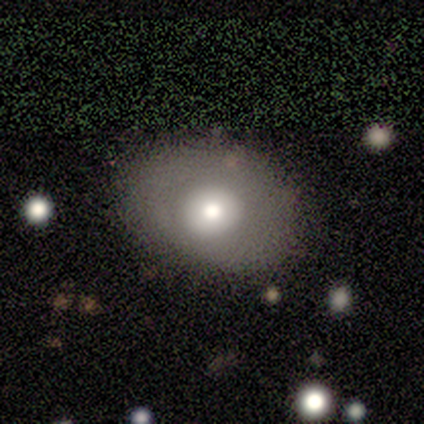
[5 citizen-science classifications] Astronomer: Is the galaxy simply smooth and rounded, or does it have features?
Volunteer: smooth — 100%.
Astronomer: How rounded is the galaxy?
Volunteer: in between — 60% (runner-up: round, 40%).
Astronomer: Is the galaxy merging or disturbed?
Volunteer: none — 80%.